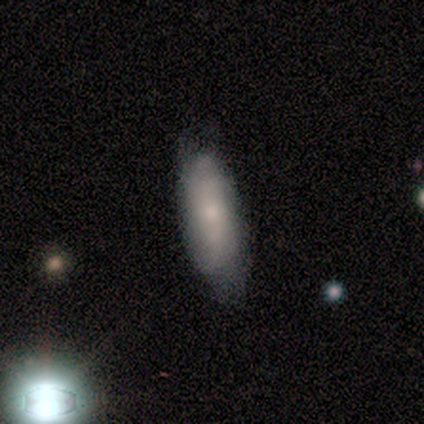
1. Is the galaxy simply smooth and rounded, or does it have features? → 100% smooth, 0% featured or disk, 0% star or artifact.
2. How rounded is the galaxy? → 80% in between, 20% cigar-shaped, 0% round.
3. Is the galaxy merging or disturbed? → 80% none, 20% minor disturbance, 0% major disturbance, 0% merger.